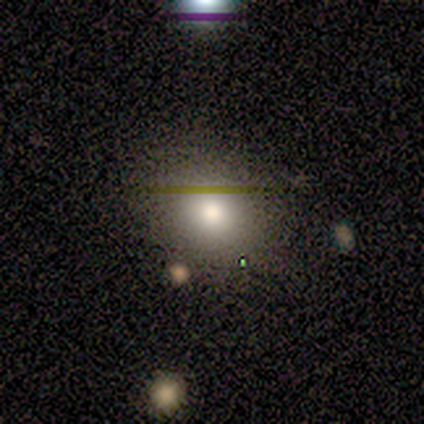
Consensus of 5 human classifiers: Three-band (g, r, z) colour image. It shows a smooth galaxy with no disk features (100%) that is round (80%). Merging: none (100%).